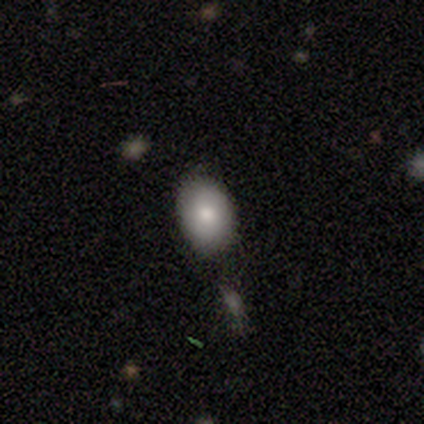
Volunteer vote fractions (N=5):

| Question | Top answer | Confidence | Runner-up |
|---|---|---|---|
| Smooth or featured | smooth | 100% | — |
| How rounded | in between | 60% | round (40%) |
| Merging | none | 80% | merger (20%) |